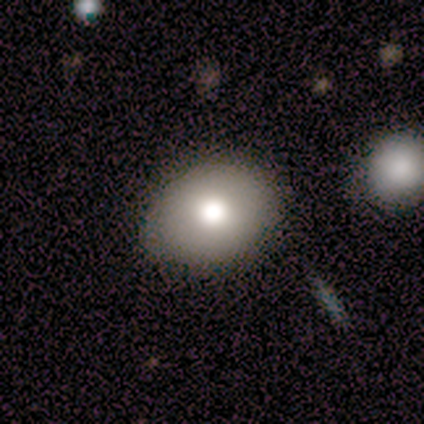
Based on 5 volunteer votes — Smooth or featured? 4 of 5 (80%) said smooth. How rounded? 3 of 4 (75%) said in between. Merging? 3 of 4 (75%) said none.